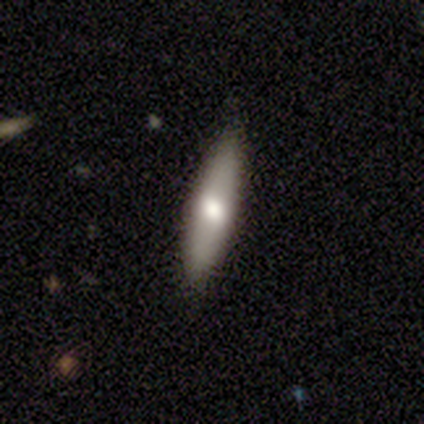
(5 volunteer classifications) Smooth or featured?
  - smooth: 60% *
  - featured or disk: 40%
  - star or artifact: 0%
How rounded?
  - cigar-shaped: 67% *
  - in between: 33%
  - round: 0%
Merging?
  - none: 100% *
  - minor disturbance: 0%
  - major disturbance: 0%
  - merger: 0%